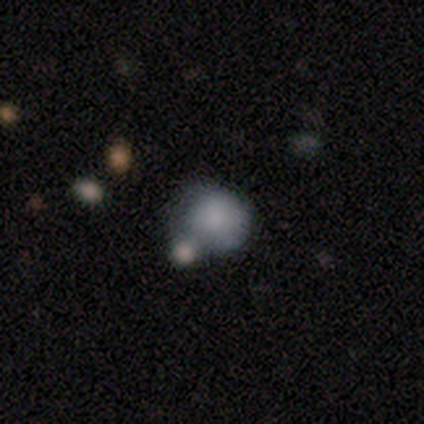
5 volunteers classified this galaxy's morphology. Smooth or featured?
  - smooth: 100% *
  - featured or disk: 0%
  - star or artifact: 0%
How rounded?
  - round: 80% *
  - in between: 20%
  - cigar-shaped: 0%
Merging?
  - none: 80% *
  - merger: 20%
  - minor disturbance: 0%
  - major disturbance: 0%